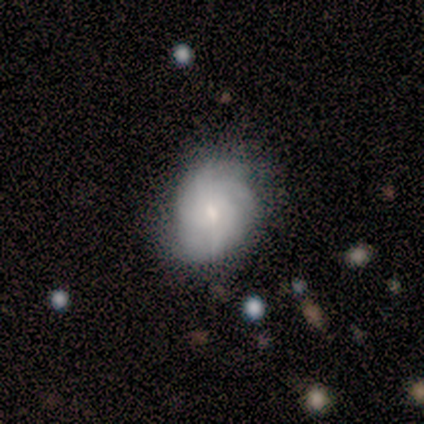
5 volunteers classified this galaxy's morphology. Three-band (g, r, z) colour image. It shows a featured or disk galaxy (60%) with no bar (100%), 3 (50%, tied with can't tell) tight (100%) spiral arms (67%) and a small central bulge (67%). Merging: none (100%).